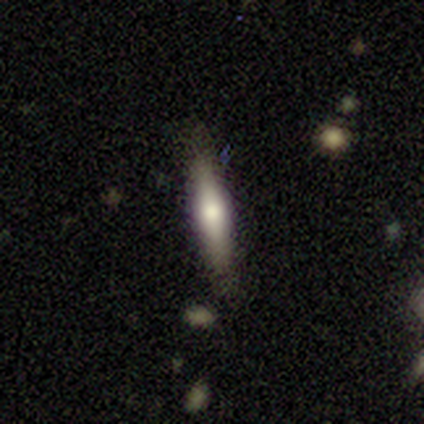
featured or disk 80%, smooth 20%, star or artifact 0%. Down the decision tree: edge-on disk — yes (50%, tied with no); edge-on bulge — boxy (50%, tied with rounded); merging — none (80%).